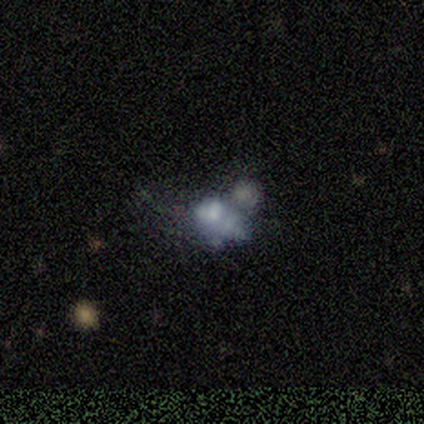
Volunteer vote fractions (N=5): Smooth or featured? smooth (40%, tied with featured or disk)
How rounded? in between (100%)
Merging? major disturbance (50%)